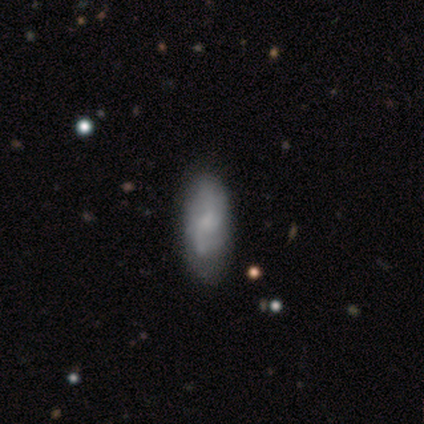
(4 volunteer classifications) smooth-or-featured: smooth: 50% (tied) | featured or disk: 50% (tied) | star or artifact: 0%
  how-rounded: in between: 100% | round: 0% | cigar-shaped: 0%
  merging: none: 50% | minor disturbance: 25% | major disturbance: 25% | merger: 0%